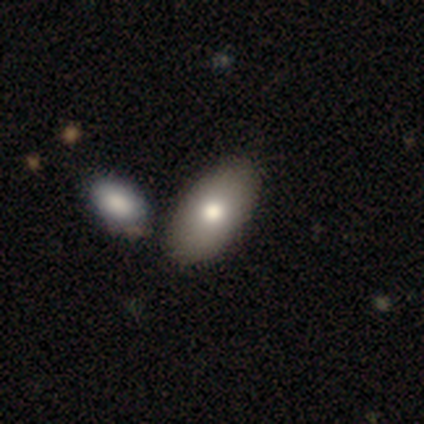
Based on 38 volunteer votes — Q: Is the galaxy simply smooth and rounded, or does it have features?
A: smooth — 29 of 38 (76%).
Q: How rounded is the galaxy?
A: in between — 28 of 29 (97%).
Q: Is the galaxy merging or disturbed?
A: none — 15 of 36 (42%).